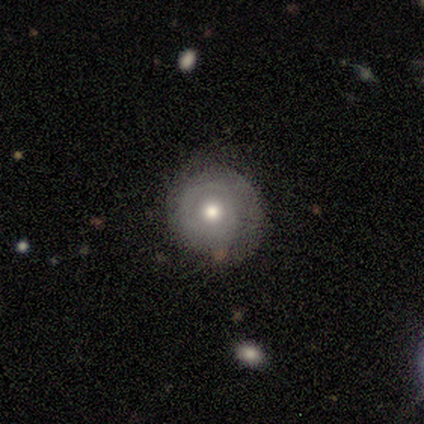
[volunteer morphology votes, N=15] Smooth or featured?
  - featured or disk: 80% *
  - smooth: 20%
  - star or artifact: 0%
Edge-on disk?
  - no: 92% *
  - yes: 8%
Bar?
  - no: 91% *
  - weak: 9%
  - strong: 0%
Spiral arms?
  - no: 64% *
  - yes: 36%
Bulge size?
  - moderate: 82% *
  - small: 18%
  - dominant: 0%
  - large: 0%
  - none: 0%
Merging?
  - none: 80% *
  - minor disturbance: 13%
  - major disturbance: 7%
  - merger: 0%